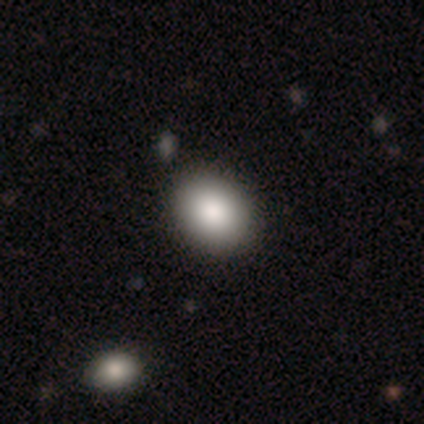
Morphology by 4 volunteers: Volunteers were most divided on "how rounded": in between: 67%, round: 33%, cigar-shaped: 0%. More confident: smooth or featured — smooth (75%); merging — none (67%).